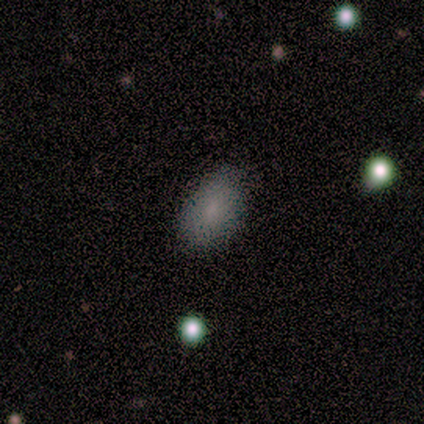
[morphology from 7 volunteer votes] This appears to be a smooth galaxy with no disk features (86%) that is in between round and cigar-shaped (67%). Merging: none (71%).